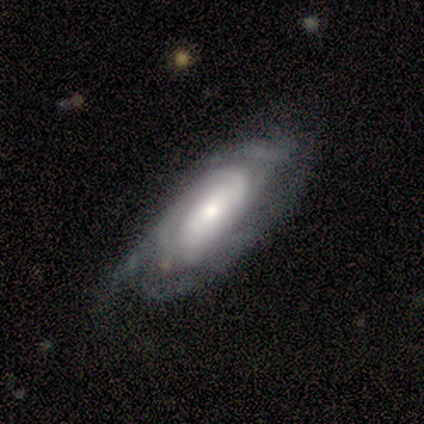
featured or disk 80%, star or artifact 20%, smooth 0%. Down the decision tree: edge-on disk — no (100%); bar — no (100%); spiral arms — yes (75%); spiral arm count — can't tell (67%); spiral winding — tight (100%); bulge size — moderate (50%, tied with small); merging — none (75%).